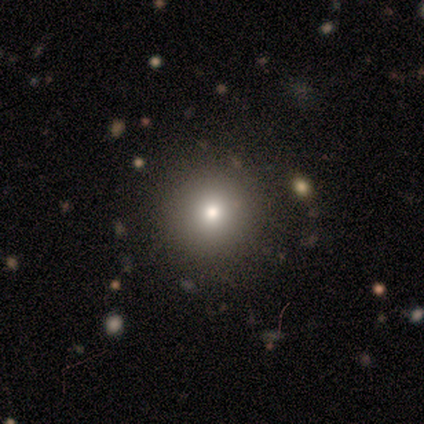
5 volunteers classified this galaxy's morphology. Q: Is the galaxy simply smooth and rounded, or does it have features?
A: smooth — 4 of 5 (80%).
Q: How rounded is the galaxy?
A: round — 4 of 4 (100%).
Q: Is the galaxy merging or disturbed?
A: none — 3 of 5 (60%).